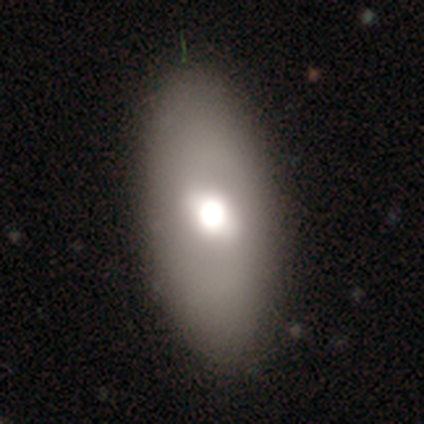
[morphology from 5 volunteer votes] smooth 60%, featured or disk 40%, star or artifact 0%. Down the decision tree: how rounded — in between (100%); merging — none (80%).